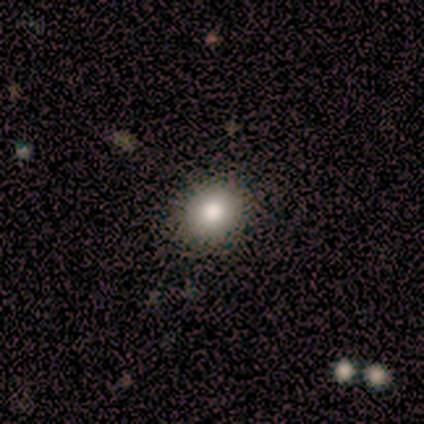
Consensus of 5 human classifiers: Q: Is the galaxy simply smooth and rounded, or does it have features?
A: star or artifact — 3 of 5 (60%).